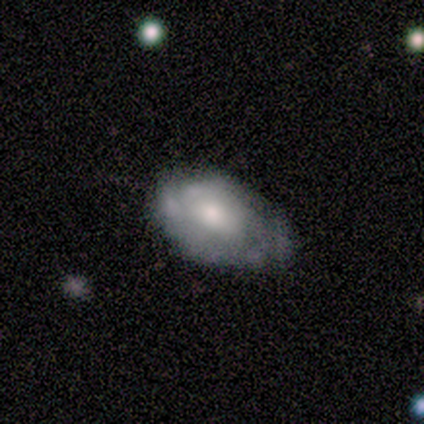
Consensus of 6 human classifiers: smooth_or_featured: featured or disk (p=0.83) [alt: smooth p=0.17]
disk_edge_on: no (p=1.00)
bar: no (p=0.80) [alt: weak p=0.20]
has_spiral_arms: no (p=0.60) [alt: yes p=0.40]
bulge_size: moderate (p=0.60) [alt: small p=0.20]
merging: minor disturbance (p=0.50) [alt: none p=0.33]